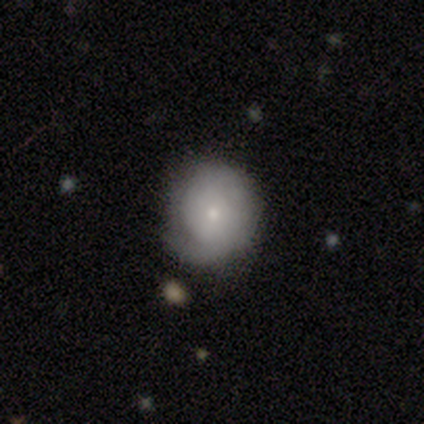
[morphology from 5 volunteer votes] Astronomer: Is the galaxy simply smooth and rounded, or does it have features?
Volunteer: featured or disk — 80%.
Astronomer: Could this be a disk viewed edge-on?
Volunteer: no — 100%.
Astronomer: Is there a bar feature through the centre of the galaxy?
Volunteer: no — 100%.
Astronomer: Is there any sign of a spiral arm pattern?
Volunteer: yes — 100%.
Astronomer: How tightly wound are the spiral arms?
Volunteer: tight — 75%.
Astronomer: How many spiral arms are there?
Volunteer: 1 — 75%.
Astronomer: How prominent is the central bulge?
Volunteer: small — 100%.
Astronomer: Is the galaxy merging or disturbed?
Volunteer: none — 60% (runner-up: minor disturbance, 40%).